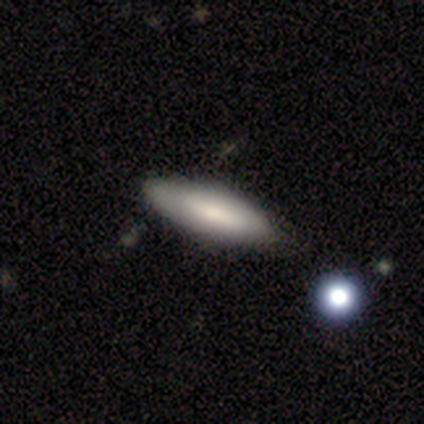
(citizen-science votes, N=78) smooth-or-featured: smooth: 72% | featured or disk: 23% | star or artifact: 5%
  how-rounded: cigar-shaped: 52% | in between: 46% | round: 2%
  merging: none: 39% | minor disturbance: 11% | merger: 9% | major disturbance: 0%